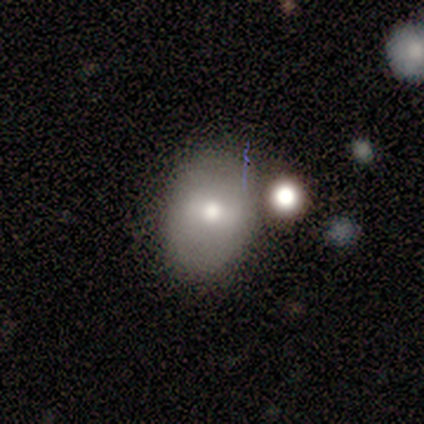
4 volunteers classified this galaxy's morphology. Smooth or featured: smooth — 50% (tied with featured or disk — 50%)
How rounded: round — 50% (tied with in between — 50%)
Merging: none — 75% (merger — 25%)